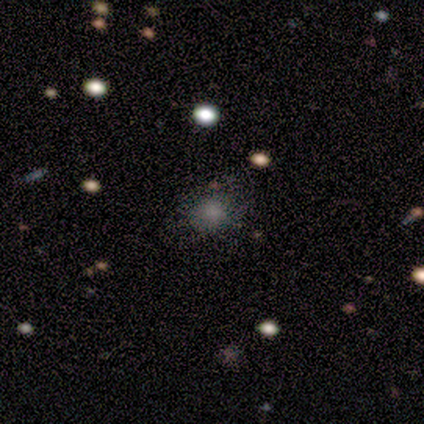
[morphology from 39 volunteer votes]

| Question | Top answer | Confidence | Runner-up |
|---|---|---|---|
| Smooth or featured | smooth | 59% | star or artifact (23%) |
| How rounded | round | 70% | in between (30%) |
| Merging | none | 70% | minor disturbance (17%) |